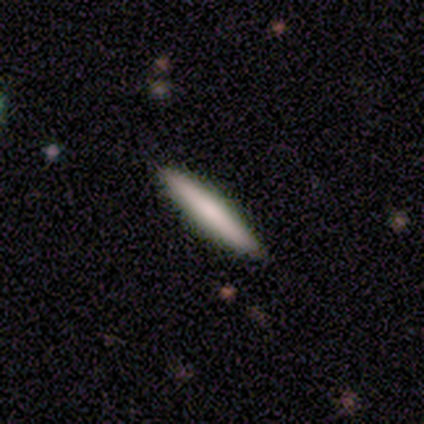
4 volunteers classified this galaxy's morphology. smooth 100%, featured or disk 0%, star or artifact 0%. Down the decision tree: how rounded — cigar-shaped (100%); merging — none (100%).